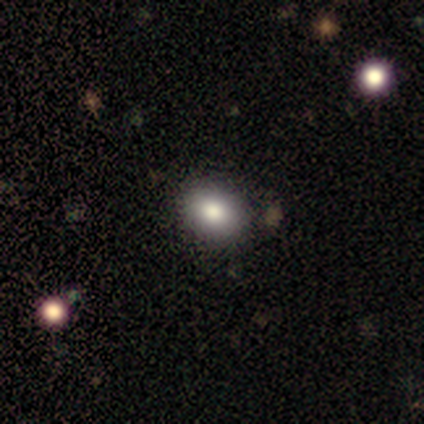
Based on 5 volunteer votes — Smooth or featured? 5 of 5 (100%) said smooth. How rounded? 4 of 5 (80%) said in between. Merging? 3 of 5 (60%) said none.